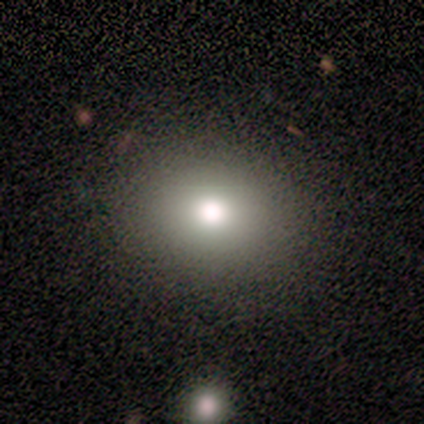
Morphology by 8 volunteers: A smooth galaxy with no disk features (88%) that is round (57%).

Vote fractions:
- Smooth or featured? smooth: 88% / star or artifact: 12% / featured or disk: 0%
- How rounded? round: 57% / in between: 43% / cigar-shaped: 0%
- Merging? none: 100% / minor disturbance: 0% / major disturbance: 0% / merger: 0%